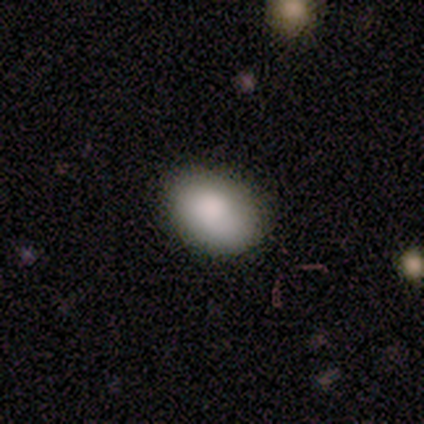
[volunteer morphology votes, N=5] Volunteers were most divided on "merging": none: 60%, minor disturbance: 40%, major disturbance: 0%, merger: 0%. More confident: smooth or featured — smooth (80%); how rounded — in between (75%).